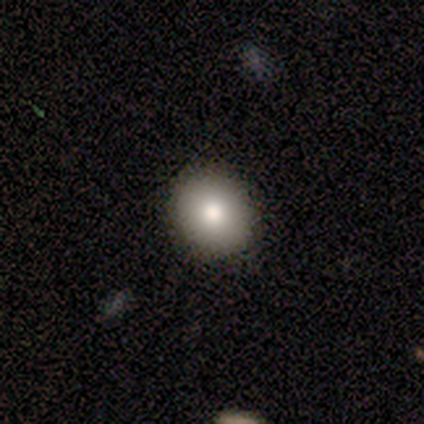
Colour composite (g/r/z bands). It shows a smooth galaxy with no disk features (100%) that is round (67%). Merging: none (100%).